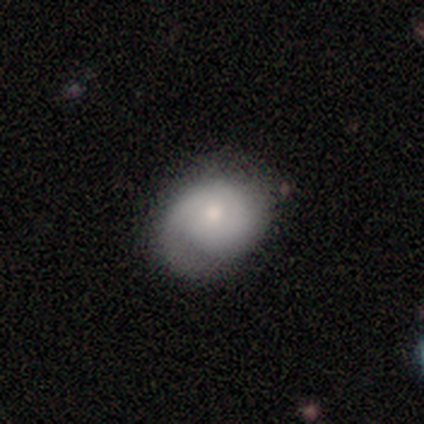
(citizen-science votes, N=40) Overall: smooth (48%; featured or disk 45%). How rounded: in between (63%; round 37%). Merging: none (54%; minor disturbance 43%).